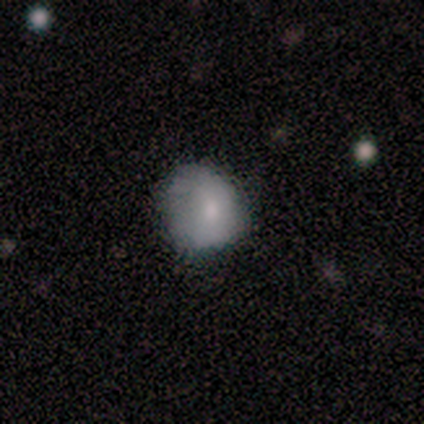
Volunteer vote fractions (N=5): smooth_or_featured: smooth (p=0.80) [alt: featured or disk p=0.20]
how_rounded: in between (p=0.75) [alt: round p=0.25]
merging: none (p=0.60) [alt: minor disturbance p=0.20]